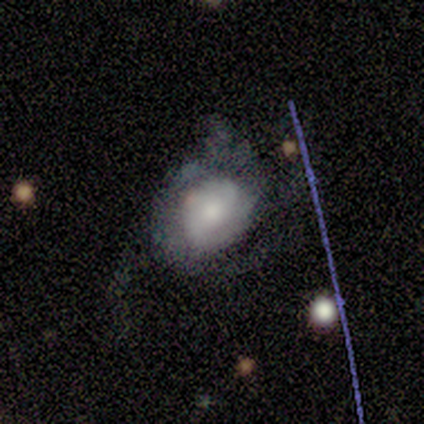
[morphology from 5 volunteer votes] smooth-or-featured: featured or disk: 40% (tied) | star or artifact: 40% (tied) | smooth: 20%
  disk-edge-on: no: 100% | yes: 0%
    bar: no: 100% | strong: 0% | weak: 0%
    has-spiral-arms: no: 100% | yes: 0%
    bulge-size: moderate: 50% (tied) | small: 50% (tied) | dominant: 0% | large: 0% | none: 0%
  merging: none: 33% (tied) | minor disturbance: 33% (tied) | major disturbance: 33% (tied) | merger: 0%